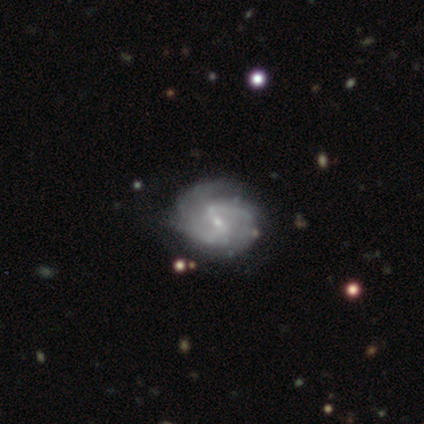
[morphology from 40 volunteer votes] smooth_or_featured: featured or disk (p=0.97) [alt: smooth p=0.03]
disk_edge_on: no (p=1.00)
bar: weak (p=0.59) [alt: strong p=0.23]
has_spiral_arms: yes (p=0.97) [alt: no p=0.03]
spiral_winding: loose (p=0.50) [alt: tight p=0.29]
spiral_arm_count: 2 (p=0.79) [alt: 3 p=0.08]
bulge_size: small (p=0.87) [alt: moderate p=0.10]
merging: none (p=0.57) [alt: minor disturbance p=0.25]